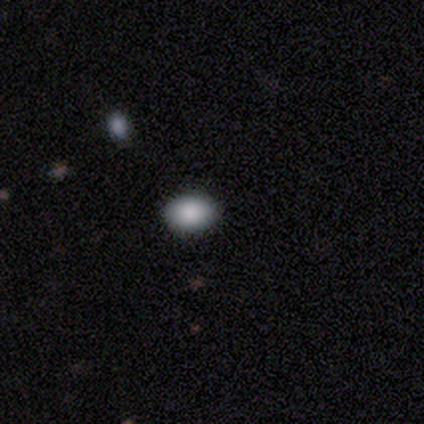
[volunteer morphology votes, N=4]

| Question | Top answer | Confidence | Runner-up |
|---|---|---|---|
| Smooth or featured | smooth | 100% | — |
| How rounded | in between | 100% | — |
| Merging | none | 100% | — |